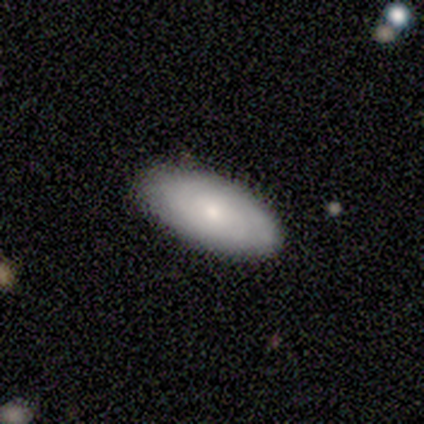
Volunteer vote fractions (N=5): Smooth or featured: smooth — 60% (featured or disk — 40%)
How rounded: in between — 100%
Merging: none — 100%